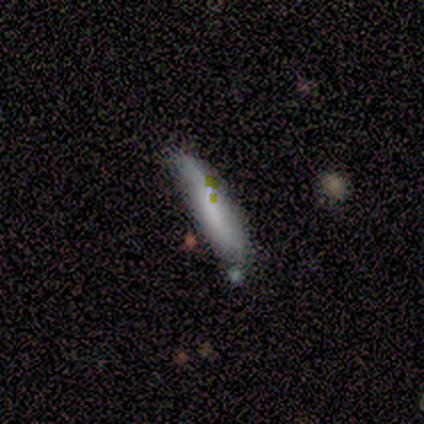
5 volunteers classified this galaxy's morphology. This is likely a smooth galaxy (60%). How rounded: clearly cigar-shaped (100%). Merging: likely none (60%).